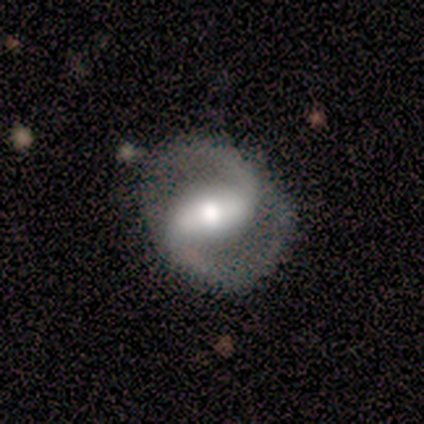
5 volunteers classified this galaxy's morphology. Smooth or featured: featured or disk — 80% (star or artifact — 20%)
Edge-on disk: no — 100%
Bar: strong — 75% (no — 25%)
Spiral arms: yes — 100%
Spiral winding: loose — 50% (tight — 25%)
Spiral arm count: 2 — 100%
Bulge size: moderate — 50% (tied with small — 50%)
Merging: none — 100%